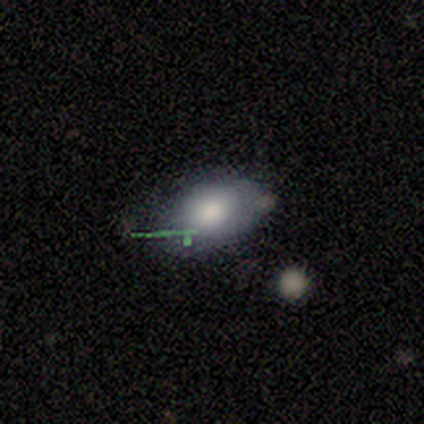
Overall: smooth (100%). How rounded: in between (100%). Merging: none (80%).